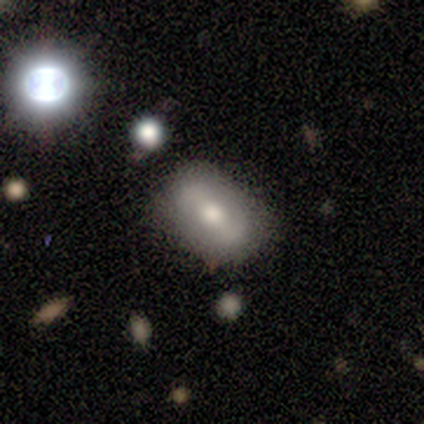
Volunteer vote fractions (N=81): Morphology: type=featured or disk (48%); edge-on=no (92%); bar=strong (50%); spiral arms=no (53%); bulge=moderate (56%); merging=none (65%).